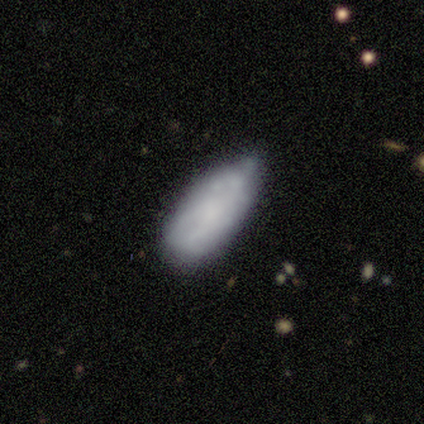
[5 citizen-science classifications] Smooth or featured: featured or disk — 60% (smooth — 40%)
Edge-on disk: no — 67% (yes — 33%)
Bar: no — 100%
Spiral arms: no — 100%
Bulge size: small — 50% (tied with none — 50%)
Merging: minor disturbance — 60% (none — 20%)